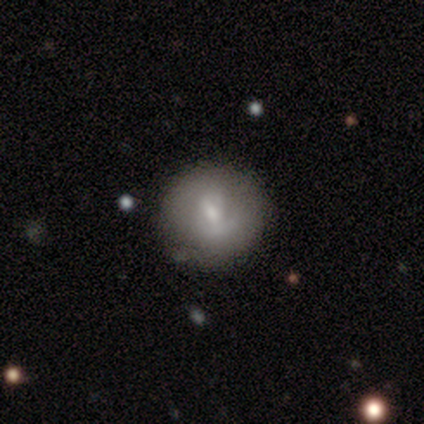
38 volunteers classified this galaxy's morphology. Volunteers were most divided on "smooth or featured": smooth: 50%, featured or disk: 39%, star or artifact: 11%. More confident: how rounded — round (95%); merging — none (79%).